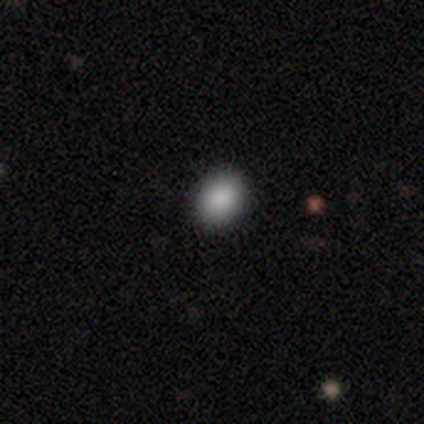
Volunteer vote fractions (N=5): smooth-or-featured: smooth: 80% | star or artifact: 20% | featured or disk: 0%
  how-rounded: round: 100% | in between: 0% | cigar-shaped: 0%
  merging: none: 75% | minor disturbance: 25% | major disturbance: 0% | merger: 0%